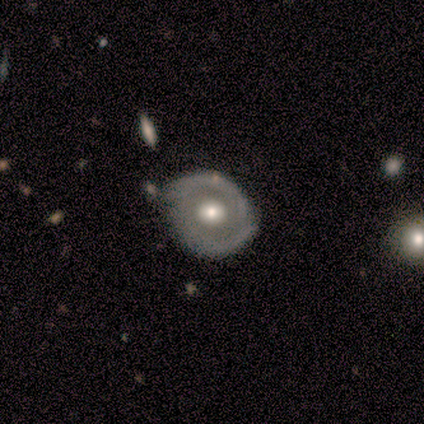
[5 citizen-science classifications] Morphology: type=featured or disk (100%); edge-on=no (100%); bar=no (100%); spiral arms=no (60%); bulge=large (40%, tied with moderate); merging=minor disturbance (60%).